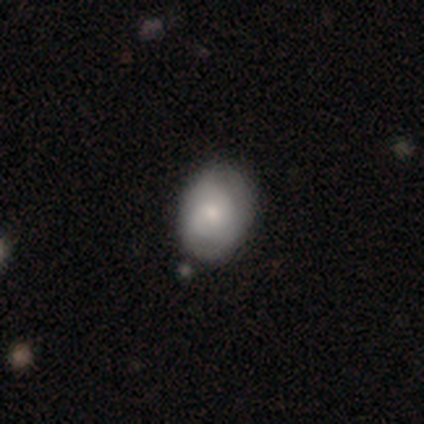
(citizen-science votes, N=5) A featured or disk galaxy (60%) with no bar (100%), no spiral arms (67%) and a moderate central bulge (67%).

Vote fractions:
- Smooth or featured? featured or disk: 60% / smooth: 20% / star or artifact: 20%
- Edge-on disk? no: 100% / yes: 0%
- Bar? no: 100% / strong: 0% / weak: 0%
- Spiral arms? no: 67% / yes: 33%
- Bulge size? moderate: 67% / small: 33% / dominant: 0% / large: 0% / none: 0%
- Merging? none: 100% / minor disturbance: 0% / major disturbance: 0% / merger: 0%